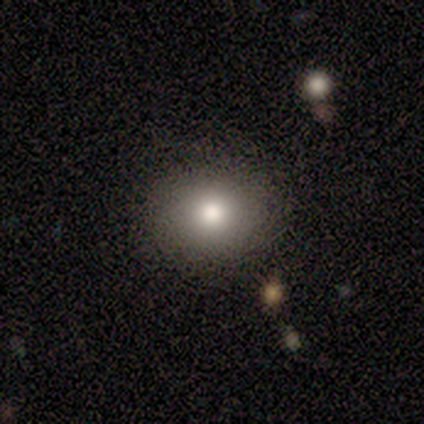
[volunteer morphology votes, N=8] smooth-or-featured: smooth: 88% | featured or disk: 12% | star or artifact: 0%
  how-rounded: round: 71% | in between: 29% | cigar-shaped: 0%
  merging: none: 75% | minor disturbance: 12% | major disturbance: 12% | merger: 0%